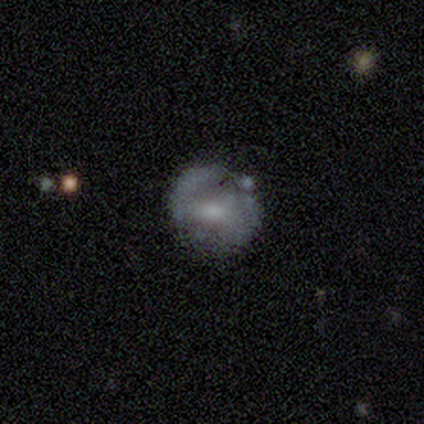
This appears to be a smooth galaxy with no disk features (40%, tied with featured or disk) that is round (100%). Merging: none (100%).